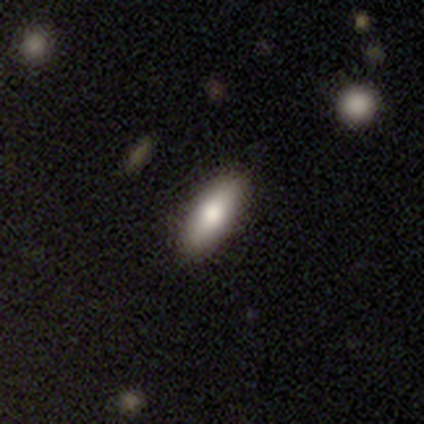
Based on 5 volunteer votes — Smooth or featured? smooth (80%)
How rounded? in between (100%)
Merging? none (100%)